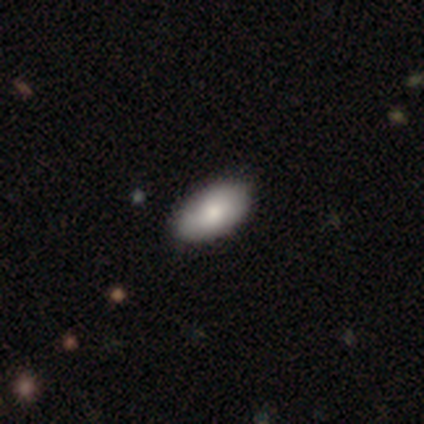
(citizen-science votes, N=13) smooth-or-featured: smooth: 100% | featured or disk: 0% | star or artifact: 0%
  how-rounded: in between: 100% | round: 0% | cigar-shaped: 0%
  merging: none: 69% | minor disturbance: 23% | major disturbance: 8% | merger: 0%